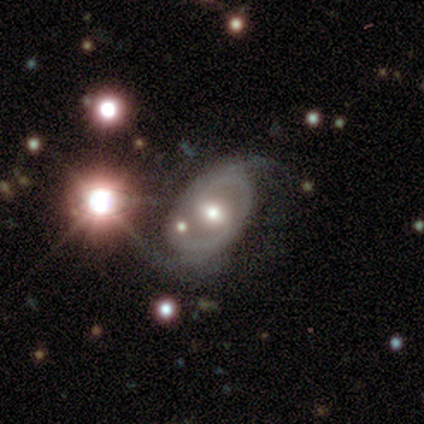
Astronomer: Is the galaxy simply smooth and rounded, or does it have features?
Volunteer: featured or disk — 74%.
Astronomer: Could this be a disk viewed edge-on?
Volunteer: no — 89%.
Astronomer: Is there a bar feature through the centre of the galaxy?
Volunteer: weak — 40%, tied with no at 40%.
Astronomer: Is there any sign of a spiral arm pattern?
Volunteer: yes — 76%.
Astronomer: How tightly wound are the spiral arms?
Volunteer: medium — 37% (runner-up: tight, 32%).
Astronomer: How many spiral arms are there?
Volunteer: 2 — 74%.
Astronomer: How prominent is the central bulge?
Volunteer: moderate — 68%.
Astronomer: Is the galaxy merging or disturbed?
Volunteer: none — 47% (runner-up: minor disturbance, 28%).